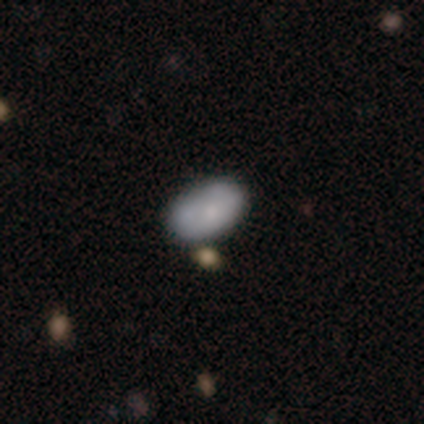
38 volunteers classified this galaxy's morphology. A smooth galaxy with no disk features (74%) that is in between round and cigar-shaped (96%).

Vote fractions:
- Smooth or featured? smooth: 74% / featured or disk: 18% / star or artifact: 8%
- How rounded? in between: 96% / round: 4% / cigar-shaped: 0%
- Merging? none: 60% / minor disturbance: 26% / merger: 14% / major disturbance: 0%